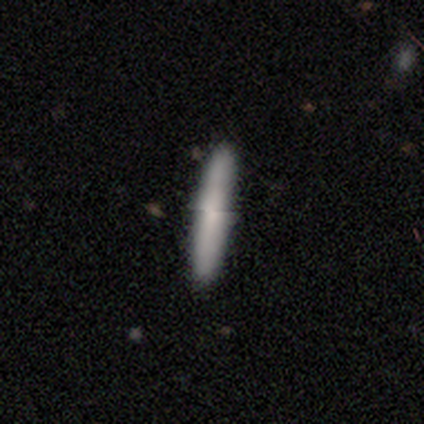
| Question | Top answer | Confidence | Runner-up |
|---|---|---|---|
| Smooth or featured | smooth | 60% | featured or disk (20%) |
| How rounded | cigar-shaped | 100% | — |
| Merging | none | 100% | — |